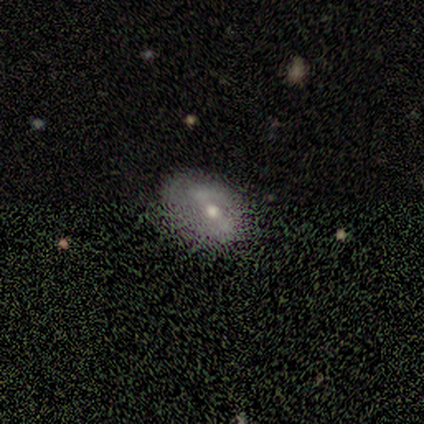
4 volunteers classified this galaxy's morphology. A featured or disk galaxy (75%) with a strong bar (67%), 2 (100%) loose (67%) spiral arms (100%) and a moderate central bulge (67%).

Vote fractions:
- Smooth or featured? featured or disk: 75% / star or artifact: 25% / smooth: 0%
- Edge-on disk? no: 100% / yes: 0%
- Bar? strong: 67% / weak: 33% / no: 0%
- Spiral arms? yes: 100% / no: 0%
- Spiral winding? loose: 67% / tight: 33% / medium: 0%
- Spiral arm count? 2: 100% / 1: 0% / 3: 0% / 4: 0% / more than 4: 0% / can't tell: 0%
- Bulge size? moderate: 67% / small: 33% / dominant: 0% / large: 0% / none: 0%
- Merging? none: 67% / minor disturbance: 33% / major disturbance: 0% / merger: 0%